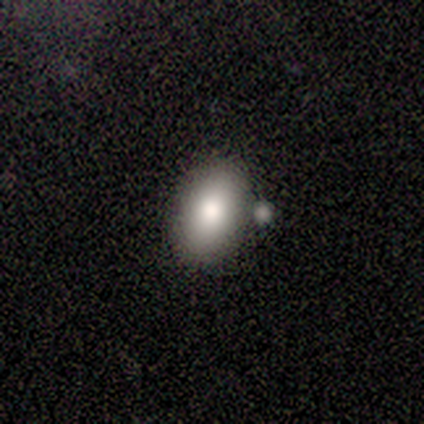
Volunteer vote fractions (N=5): Smooth or featured? 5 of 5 (100%) said smooth. How rounded? 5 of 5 (100%) said in between. Merging? 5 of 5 (100%) said none.